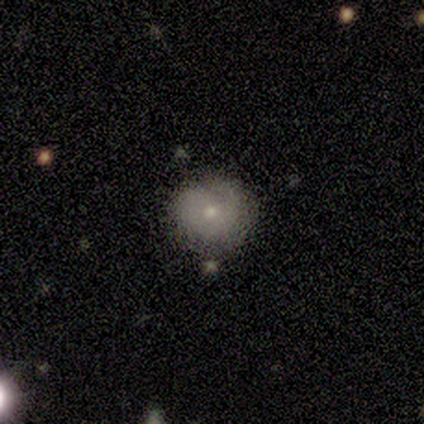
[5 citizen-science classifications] Smooth or featured: smooth — 60% (featured or disk — 40%)
How rounded: round — 100%
Merging: none — 80% (major disturbance — 20%)